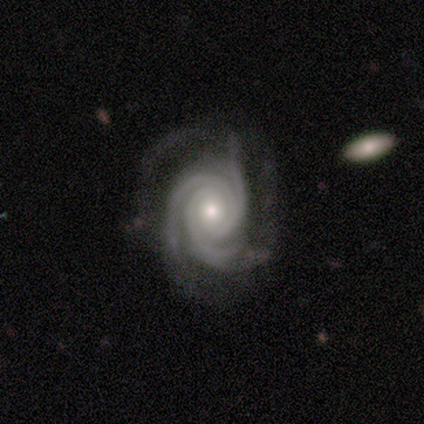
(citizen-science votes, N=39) Smooth or featured? featured or disk (92%)
Edge-on disk? no (100%)
Bar? no (83%)
Spiral arms? yes (94%)
Spiral winding? tight (82%)
Spiral arm count? 3 (85%)
Bulge size? moderate (56%)
Merging? none (68%)